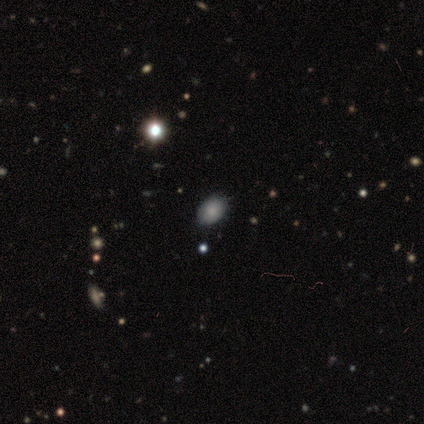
Smooth or featured?
  - smooth: 85% *
  - featured or disk: 8%
  - star or artifact: 8%
How rounded?
  - in between: 82% *
  - round: 18%
  - cigar-shaped: 0%
Merging?
  - none: 67% *
  - minor disturbance: 17%
  - major disturbance: 8%
  - merger: 8%